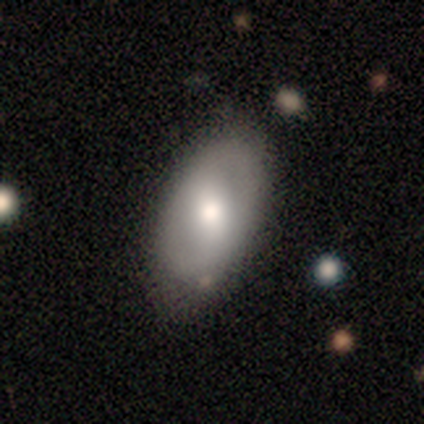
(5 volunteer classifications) Smooth or featured?
  - smooth: 40% * (tied)
  - star or artifact: 40% * (tied)
  - featured or disk: 20%
How rounded?
  - in between: 100% *
  - round: 0%
  - cigar-shaped: 0%
Merging?
  - none: 100% *
  - minor disturbance: 0%
  - major disturbance: 0%
  - merger: 0%